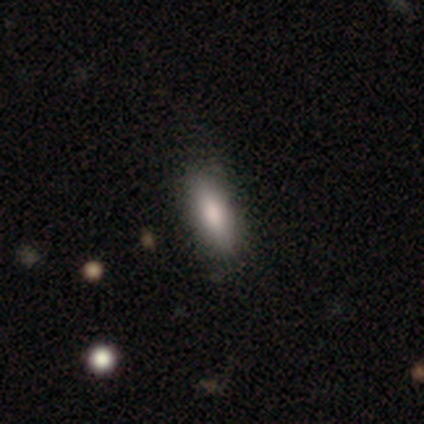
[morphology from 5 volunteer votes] smooth-or-featured: smooth: 80% | star or artifact: 20% | featured or disk: 0%
  how-rounded: in between: 100% | round: 0% | cigar-shaped: 0%
  merging: none: 100% | minor disturbance: 0% | major disturbance: 0% | merger: 0%